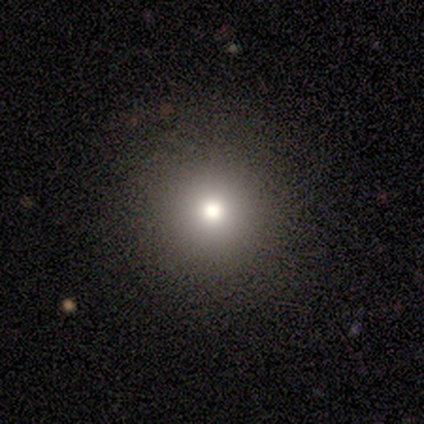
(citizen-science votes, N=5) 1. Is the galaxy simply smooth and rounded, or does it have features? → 100% smooth, 0% featured or disk, 0% star or artifact.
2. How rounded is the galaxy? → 100% round, 0% in between, 0% cigar-shaped.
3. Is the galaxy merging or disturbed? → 100% none, 0% minor disturbance, 0% major disturbance, 0% merger.